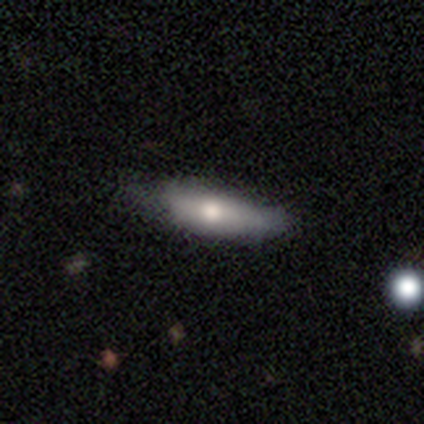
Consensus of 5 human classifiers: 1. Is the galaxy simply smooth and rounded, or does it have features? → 60% smooth, 40% featured or disk, 0% star or artifact.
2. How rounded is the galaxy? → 67% cigar-shaped, 33% in between, 0% round.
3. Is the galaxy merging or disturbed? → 60% none, 20% minor disturbance, 20% major disturbance, 0% merger.